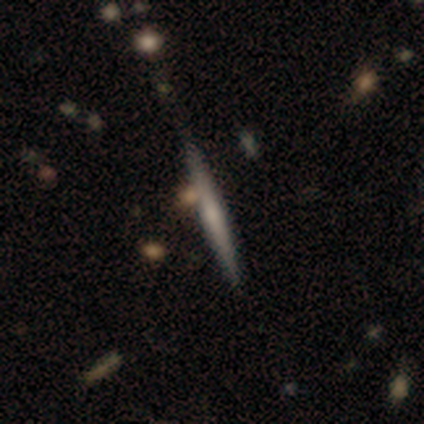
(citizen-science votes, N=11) Volunteers were most divided on "smooth or featured": smooth: 64%, featured or disk: 36%, star or artifact: 0%. More confident: merging — none (91%); how rounded — cigar-shaped (86%).